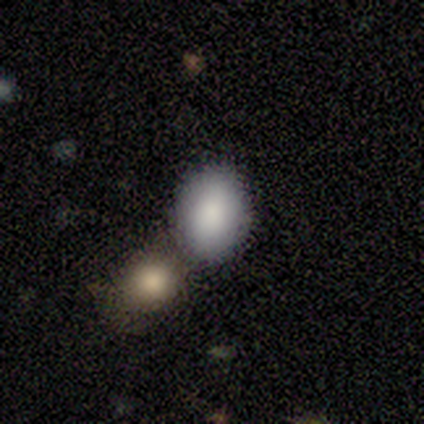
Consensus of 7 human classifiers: Morphology: type=smooth (100%); roundness=in between (71%); merging=merger (57%).